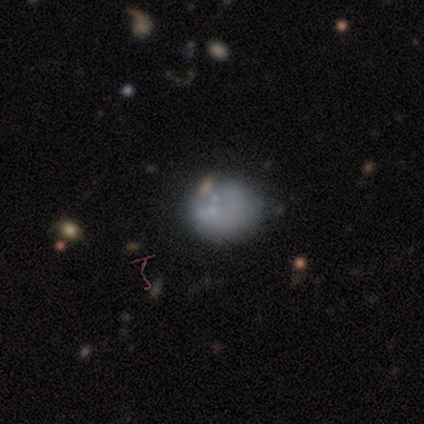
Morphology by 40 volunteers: This is possibly a smooth galaxy (48%). How rounded: clearly round (89%). Merging: possibly none (54%).